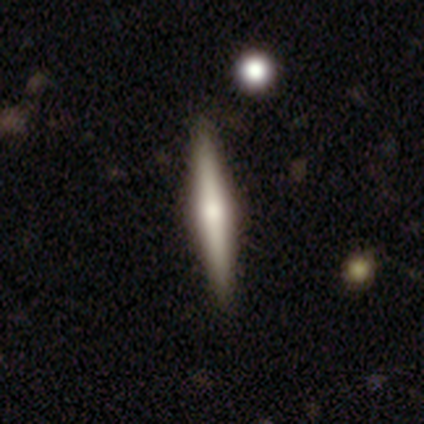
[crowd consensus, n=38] Smooth or featured? featured or disk (76%)
Edge-on disk? yes (100%)
Edge-on bulge? rounded (97%)
Merging? none (89%)